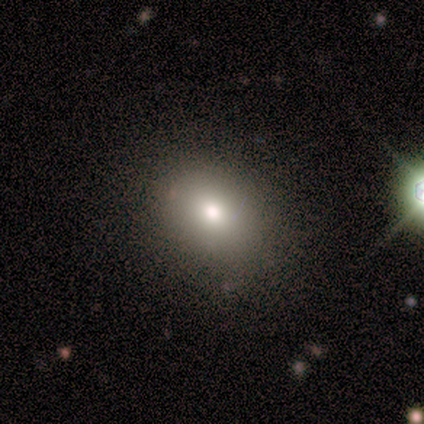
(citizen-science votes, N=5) Smooth or featured? smooth (40%, tied with featured or disk)
How rounded? in between (100%)
Merging? none (100%)